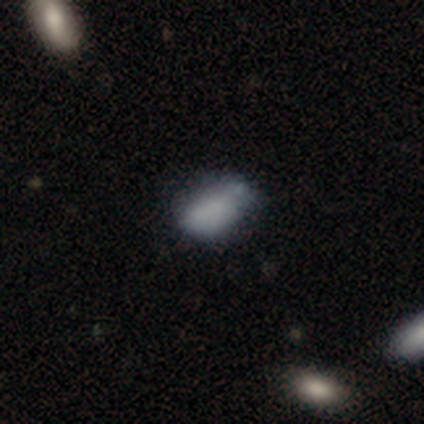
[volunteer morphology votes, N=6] Smooth or featured? smooth (83%)
How rounded? in between (100%)
Merging? none (67%)